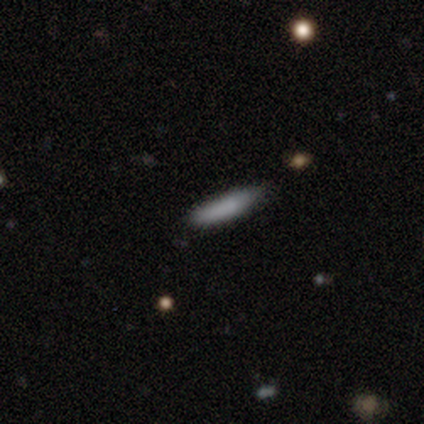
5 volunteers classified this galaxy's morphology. Smooth or featured?
  - smooth: 60% *
  - featured or disk: 40%
  - star or artifact: 0%
How rounded?
  - cigar-shaped: 100% *
  - round: 0%
  - in between: 0%
Merging?
  - none: 60% *
  - minor disturbance: 40%
  - major disturbance: 0%
  - merger: 0%